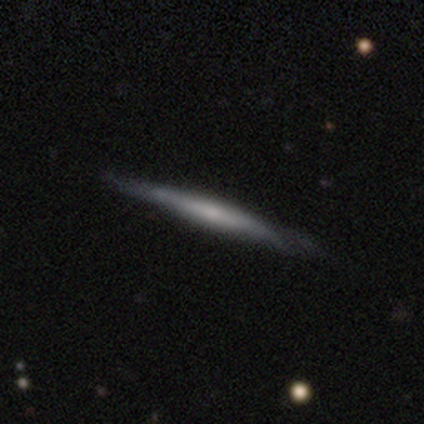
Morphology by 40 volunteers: smooth-or-featured: featured or disk: 70% | smooth: 28% | star or artifact: 2%
  disk-edge-on: yes: 96% | no: 4%
    edge-on-bulge: none: 56% | rounded: 44% | boxy: 0%
  merging: none: 77% | minor disturbance: 18% | major disturbance: 3% | merger: 3%